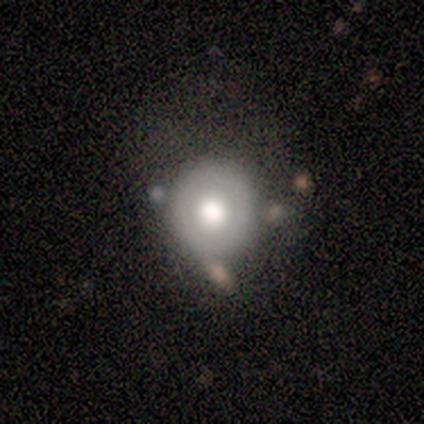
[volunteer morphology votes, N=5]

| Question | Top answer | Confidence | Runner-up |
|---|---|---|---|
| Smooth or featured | smooth | 100% | — |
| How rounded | round | 100% | — |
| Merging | none | 60% | major disturbance (40%) |